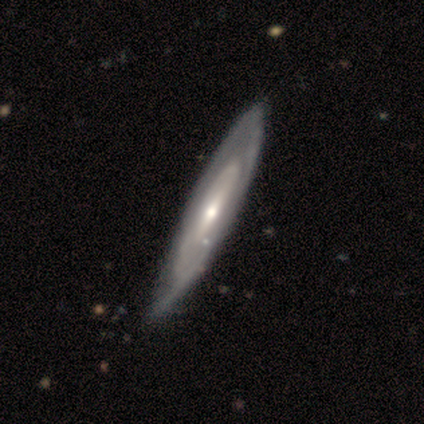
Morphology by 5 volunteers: featured or disk 60%, smooth 40%, star or artifact 0%. Down the decision tree: edge-on disk — yes (100%); edge-on bulge — none (67%); merging — none (80%).